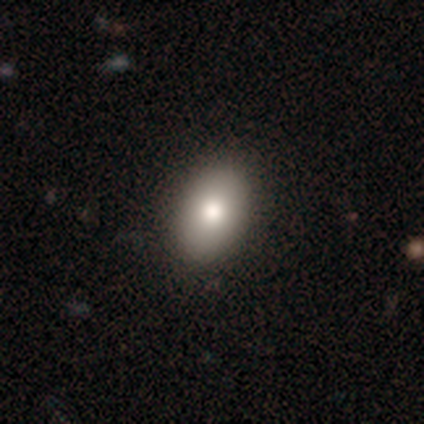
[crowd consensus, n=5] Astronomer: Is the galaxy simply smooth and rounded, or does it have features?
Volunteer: smooth — 100%.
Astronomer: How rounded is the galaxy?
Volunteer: in between — 100%.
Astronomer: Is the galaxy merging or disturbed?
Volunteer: none — 80%.